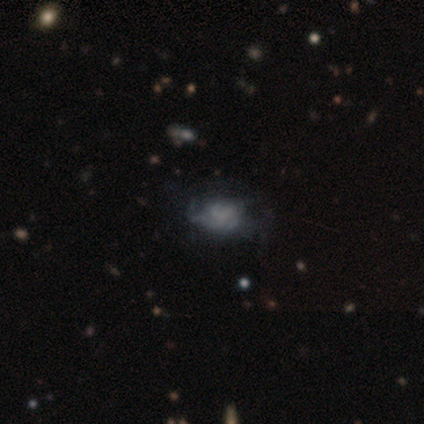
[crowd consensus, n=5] Smooth or featured?
  - featured or disk: 60% *
  - smooth: 40%
  - star or artifact: 0%
Edge-on disk?
  - no: 100% *
  - yes: 0%
Bar?
  - no: 67% *
  - weak: 33%
  - strong: 0%
Spiral arms?
  - no: 100% *
  - yes: 0%
Bulge size?
  - none: 67% *
  - moderate: 33%
  - dominant: 0%
  - large: 0%
  - small: 0%
Merging?
  - none: 40% * (tied)
  - minor disturbance: 40% * (tied)
  - major disturbance: 20%
  - merger: 0%